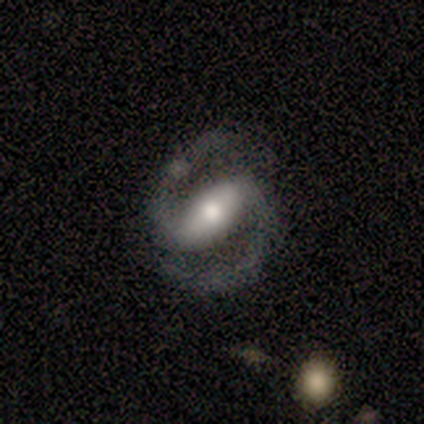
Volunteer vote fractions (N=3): Smooth or featured: featured or disk — 100%
Edge-on disk: no — 100%
Bar: weak — 67% (strong — 33%)
Spiral arms: yes — 100%
Spiral winding: medium — 67% (loose — 33%)
Spiral arm count: 2 — 100%
Bulge size: large — 33% (tied with moderate — 33%; small — 33%)
Merging: minor disturbance — 67% (none — 33%)